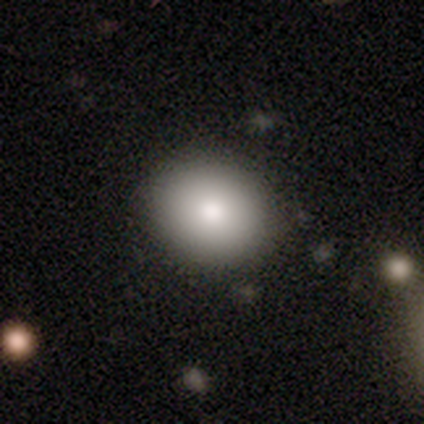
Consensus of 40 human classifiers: Morphology: type=smooth (80%); roundness=round (84%); merging=none (91%).